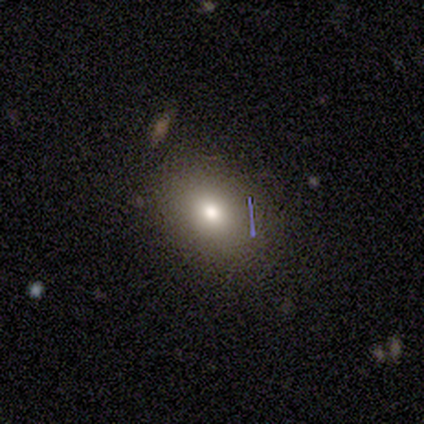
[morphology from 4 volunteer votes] smooth 75%, star or artifact 25%, featured or disk 0%. Down the decision tree: how rounded — in between (100%); merging — none (67%).